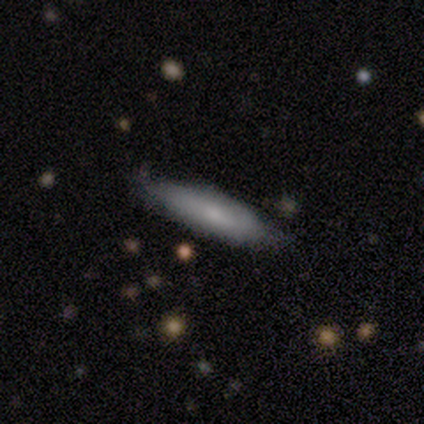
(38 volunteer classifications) A smooth galaxy with no disk features (79%) that is cigar-shaped (70%).

Vote fractions:
- Smooth or featured? smooth: 79% / featured or disk: 18% / star or artifact: 3%
- How rounded? cigar-shaped: 70% / in between: 30% / round: 0%
- Merging? none: 92% / minor disturbance: 5% / major disturbance: 3% / merger: 0%